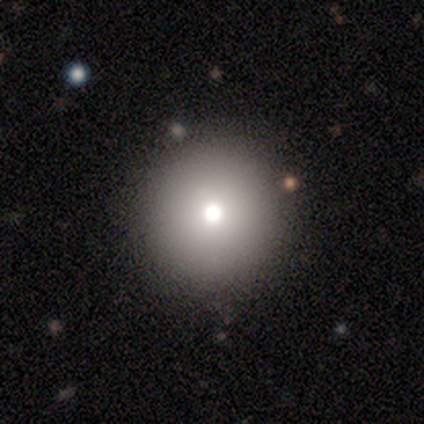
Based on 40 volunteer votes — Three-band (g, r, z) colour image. It shows a smooth galaxy with no disk features (75%) that is round (100%). Merging: none (88%).